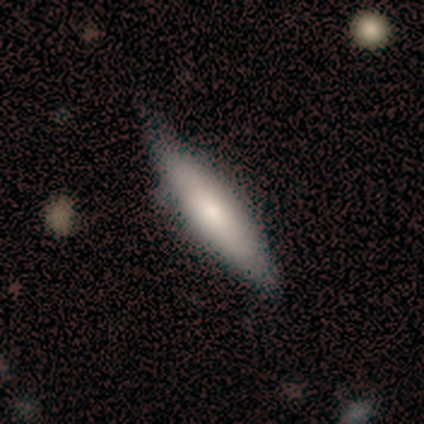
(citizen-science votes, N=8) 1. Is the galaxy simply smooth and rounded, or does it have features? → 75% smooth, 25% featured or disk, 0% star or artifact.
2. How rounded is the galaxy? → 83% cigar-shaped, 17% in between, 0% round.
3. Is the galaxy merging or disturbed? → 88% none, 12% minor disturbance, 0% major disturbance, 0% merger.